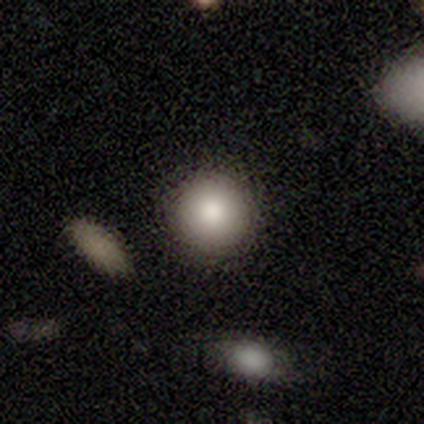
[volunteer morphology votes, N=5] This appears to be a smooth galaxy with no disk features (80%) that is round (100%). Merging: none (100%).